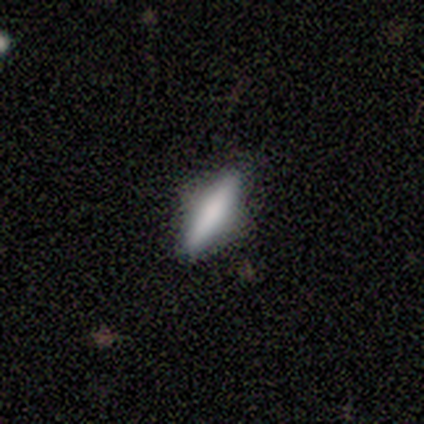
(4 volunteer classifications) Smooth or featured? 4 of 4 (100%) said smooth. How rounded? 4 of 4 (100%) said cigar-shaped. Merging? 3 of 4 (75%) said none.